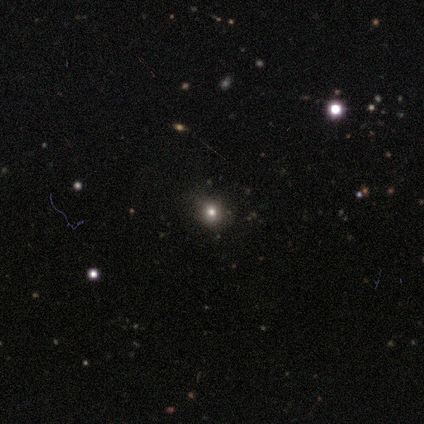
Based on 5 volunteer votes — A star or artifact, not a galaxy (60%).